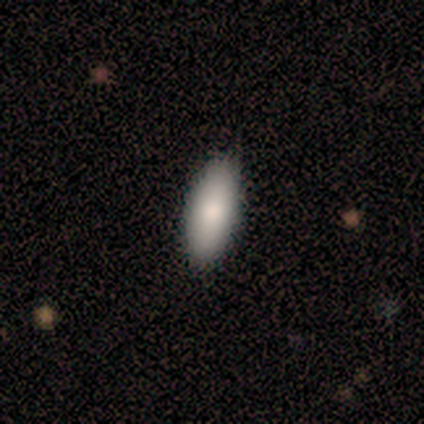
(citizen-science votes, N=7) This is clearly a smooth galaxy (86%). How rounded: clearly in between (83%). Merging: likely none (71%).